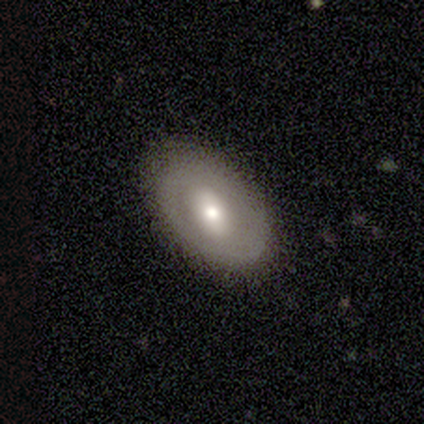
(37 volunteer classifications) A featured or disk galaxy (57%) with no bar (53%), no spiral arms (79%) and a moderate central bulge (68%). Merging: none (92%).